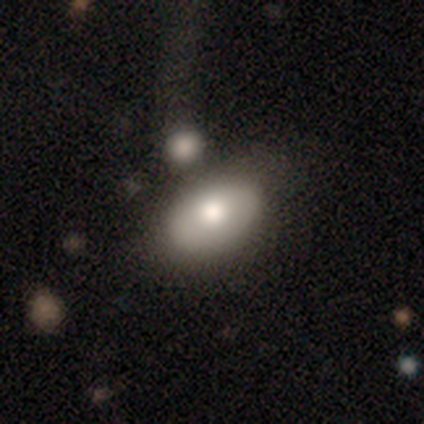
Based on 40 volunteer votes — smooth-or-featured: smooth: 80% | featured or disk: 20% | star or artifact: 0%
  how-rounded: in between: 94% | round: 6% | cigar-shaped: 0%
  merging: none: 62% | merger: 15% | minor disturbance: 12% | major disturbance: 10%